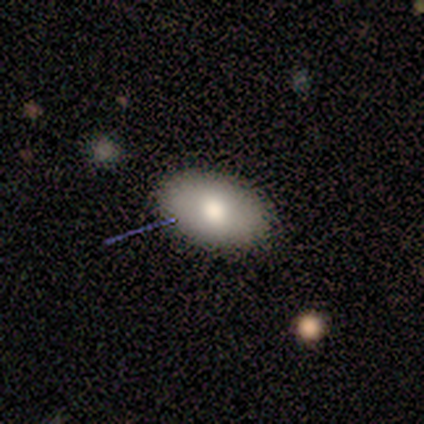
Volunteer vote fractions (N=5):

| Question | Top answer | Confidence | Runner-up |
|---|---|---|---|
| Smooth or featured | smooth | 80% | featured or disk (20%) |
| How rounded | in between | 100% | — |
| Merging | none | 80% | minor disturbance (20%) |